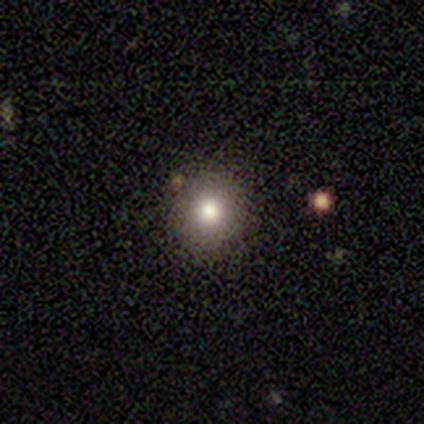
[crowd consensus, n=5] Smooth or featured? 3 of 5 (60%) said smooth. How rounded? 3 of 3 (100%) said round. Merging? 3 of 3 (100%) said none.